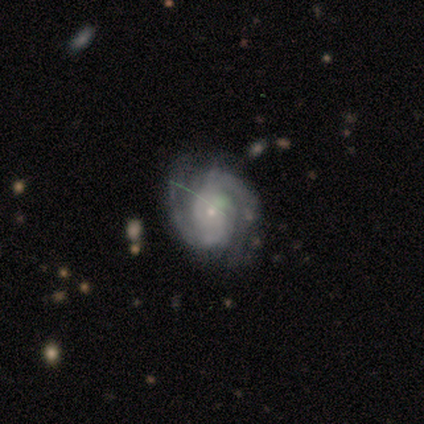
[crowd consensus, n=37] Overall: featured or disk (84%). Edge-on disk: no (100%). Bar: no (68%). Spiral arms: yes (100%). Spiral arm count: 2 (81%). Spiral winding: tight (48%; medium 42%). Bulge size: small (90%). Merging: none (82%).